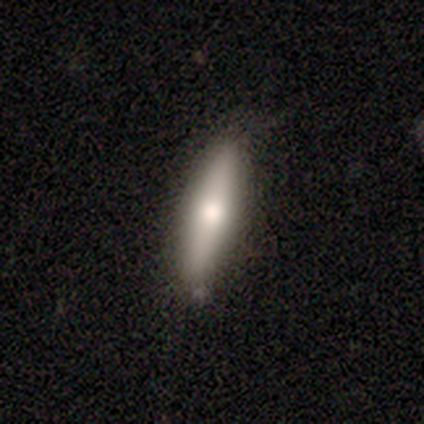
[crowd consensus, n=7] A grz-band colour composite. It shows a smooth galaxy with no disk features (57%) that is in between round and cigar-shaped (50%, tied with cigar-shaped). Merging: none (86%).